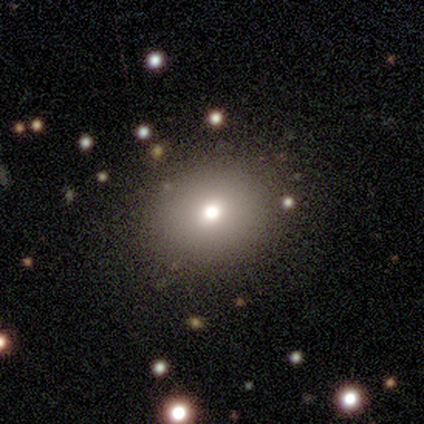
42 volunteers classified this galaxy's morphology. Q: Smooth or featured?
A: smooth (67%); runner-up: star or artifact (19%)
Q: How rounded?
A: round (68%); runner-up: in between (32%)
Q: Merging?
A: none (85%); runner-up: minor disturbance (12%)